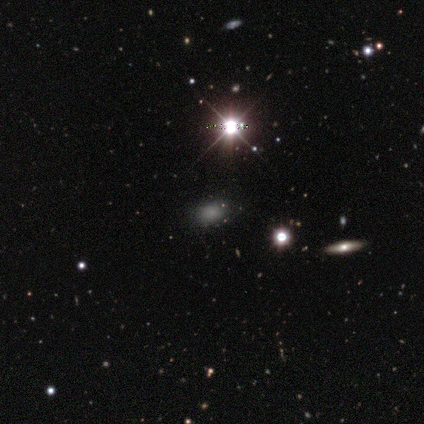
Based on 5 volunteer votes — Smooth or featured: star or artifact — 80% (smooth — 20%)